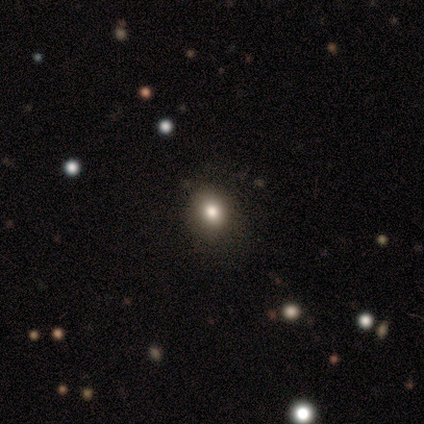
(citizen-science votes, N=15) Smooth or featured?
  - smooth: 80% *
  - featured or disk: 13%
  - star or artifact: 7%
How rounded?
  - round: 75% *
  - in between: 25%
  - cigar-shaped: 0%
Merging?
  - none: 79% *
  - minor disturbance: 21%
  - major disturbance: 0%
  - merger: 0%